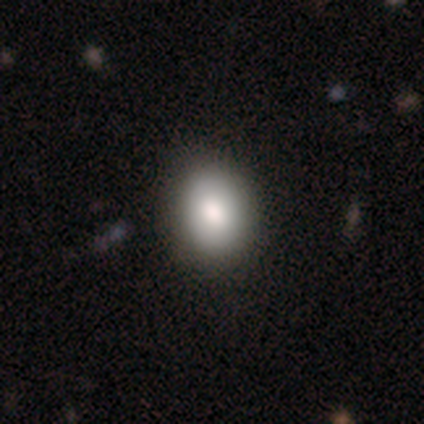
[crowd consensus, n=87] This appears to be a smooth galaxy with no disk features (82%) that is round (56%). Merging: none (87%).